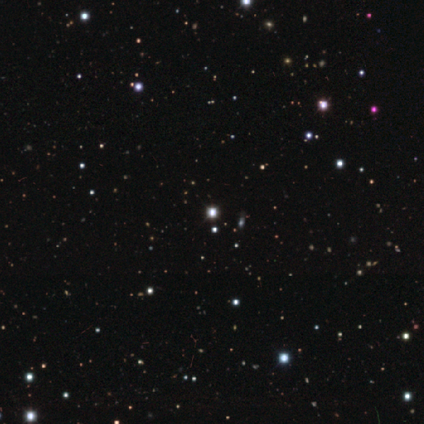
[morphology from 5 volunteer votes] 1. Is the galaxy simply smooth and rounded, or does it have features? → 100% star or artifact, 0% smooth, 0% featured or disk.